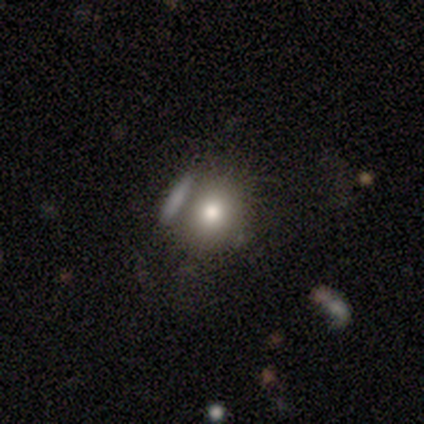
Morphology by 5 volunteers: smooth_or_featured: star or artifact (p=0.60) [alt: smooth p=0.20]